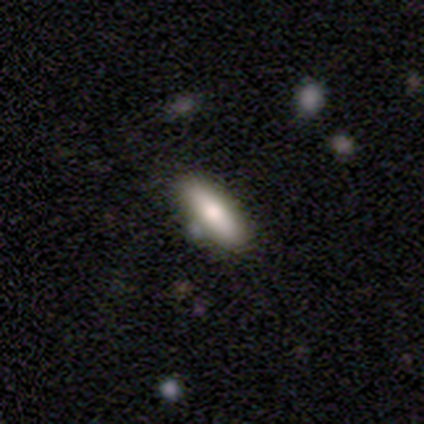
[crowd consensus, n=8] Smooth or featured? 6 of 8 (75%) said smooth. How rounded? 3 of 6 (50%, tied with cigar-shaped) said in between. Merging? 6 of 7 (86%) said none.